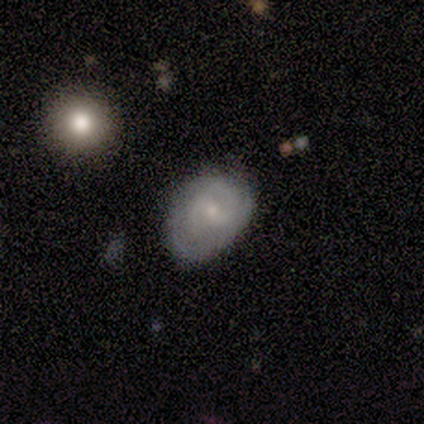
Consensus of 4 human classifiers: Smooth or featured? 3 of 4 (75%) said featured or disk. Edge-on disk? 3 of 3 (100%) said no. Bar? 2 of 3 (67%) said no. Spiral arms? 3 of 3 (100%) said yes. Spiral winding? 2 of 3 (67%) said medium. Spiral arm count? 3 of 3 (100%) said can't tell. Bulge size? 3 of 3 (100%) said small. Merging? 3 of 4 (75%) said none.